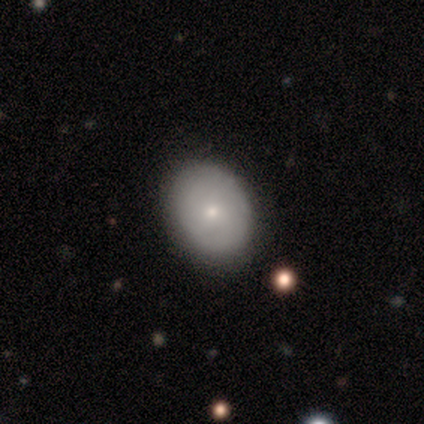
This appears to be a smooth galaxy with no disk features (100%) that is round (60%). Merging: none (80%).